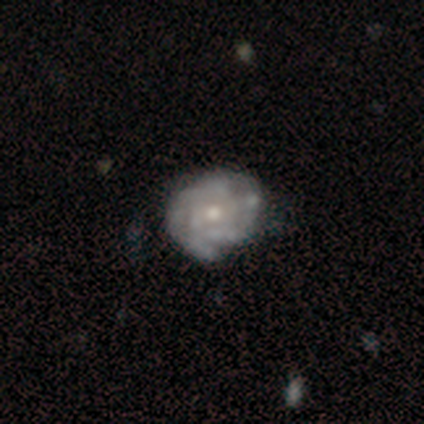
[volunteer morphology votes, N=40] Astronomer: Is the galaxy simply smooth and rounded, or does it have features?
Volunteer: featured or disk — 88%.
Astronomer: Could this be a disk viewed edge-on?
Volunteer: no — 100%.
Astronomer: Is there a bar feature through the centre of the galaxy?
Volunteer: no — 94%.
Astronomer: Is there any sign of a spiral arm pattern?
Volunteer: yes — 91%.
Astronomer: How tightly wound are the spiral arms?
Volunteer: tight — 78%.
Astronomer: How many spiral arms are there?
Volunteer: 2 — 59%.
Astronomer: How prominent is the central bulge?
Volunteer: moderate — 60% (runner-up: small, 37%).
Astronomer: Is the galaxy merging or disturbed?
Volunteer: none — 44% (runner-up: minor disturbance, 28%).